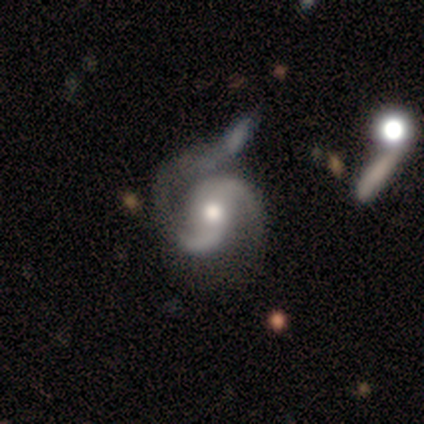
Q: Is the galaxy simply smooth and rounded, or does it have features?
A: featured or disk — 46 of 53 (87%).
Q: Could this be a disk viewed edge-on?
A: no — 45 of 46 (98%).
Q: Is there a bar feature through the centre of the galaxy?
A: no — 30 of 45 (67%).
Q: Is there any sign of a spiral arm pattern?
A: yes — 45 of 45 (100%).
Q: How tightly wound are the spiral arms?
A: medium — 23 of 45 (51%).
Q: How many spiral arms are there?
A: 2 — 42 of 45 (93%).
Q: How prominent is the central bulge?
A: moderate — 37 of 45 (82%).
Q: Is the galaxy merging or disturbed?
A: minor disturbance — 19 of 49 (39%).